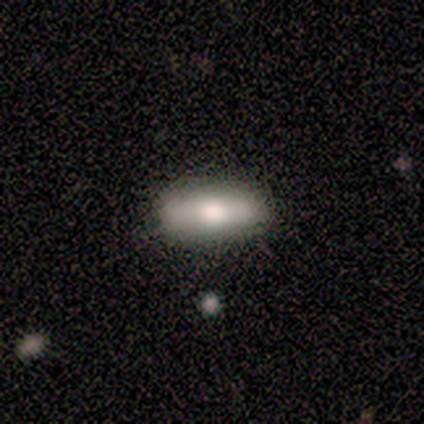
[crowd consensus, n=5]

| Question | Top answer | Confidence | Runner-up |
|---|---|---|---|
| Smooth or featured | smooth | 60% | featured or disk (40%) |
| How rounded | in between | 67% | cigar-shaped (33%) |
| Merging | none | 100% | — |